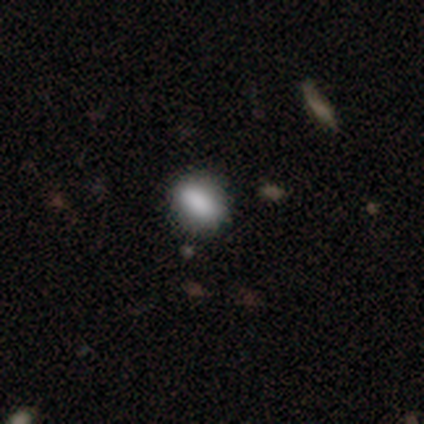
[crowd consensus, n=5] This is clearly a smooth galaxy (100%). How rounded: likely round (60%). Merging: marginally none (40%, tied with minor disturbance).